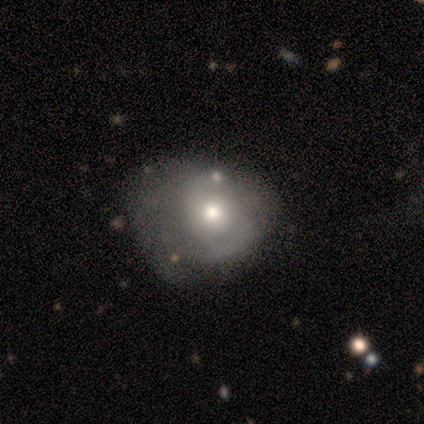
Smooth or featured? 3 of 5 (60%) said smooth. How rounded? 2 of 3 (67%) said in between. Merging? 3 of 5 (60%) said minor disturbance.